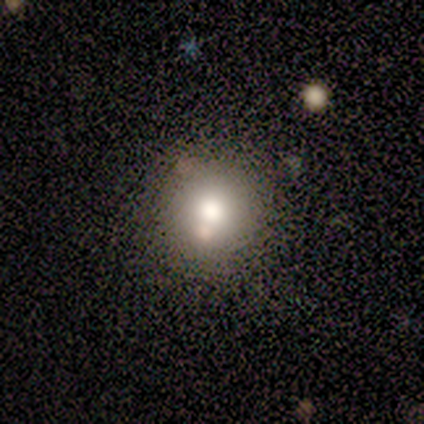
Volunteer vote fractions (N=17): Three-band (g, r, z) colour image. It shows a smooth galaxy with no disk features (71%) that is round (100%). Merging: none (79%).